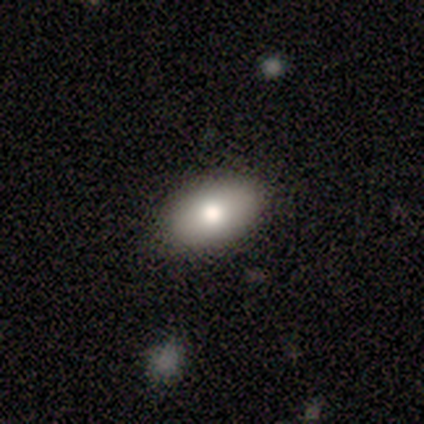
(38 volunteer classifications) smooth-or-featured: smooth: 76% | featured or disk: 18% | star or artifact: 5%
  how-rounded: in between: 86% | round: 10% | cigar-shaped: 3%
  merging: none: 89% | minor disturbance: 6% | major disturbance: 6% | merger: 0%